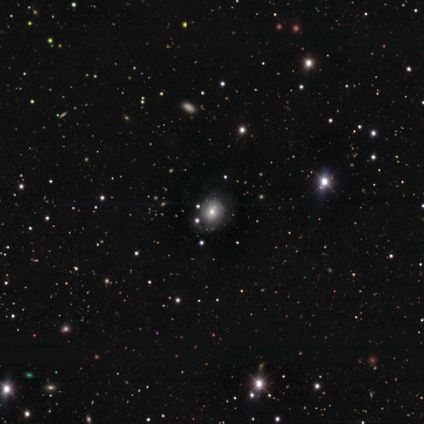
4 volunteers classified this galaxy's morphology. A featured or disk galaxy (100%) with a weak bar (50%, tied with no), tight (100%) spiral arms (100%) and a moderate central bulge (100%). Merging: none (100%).